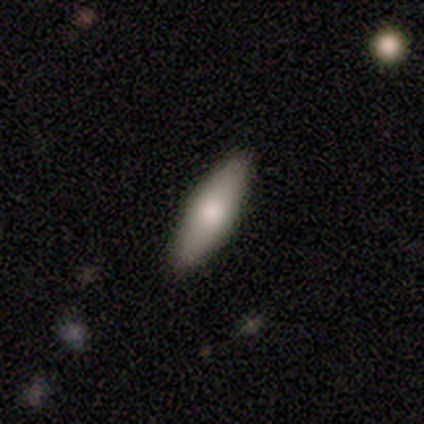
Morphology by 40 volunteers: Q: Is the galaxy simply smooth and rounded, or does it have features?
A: smooth — 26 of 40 (65%).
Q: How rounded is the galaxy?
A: in between — 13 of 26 (50%, tied with cigar-shaped).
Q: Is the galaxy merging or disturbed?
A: none — 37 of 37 (100%).